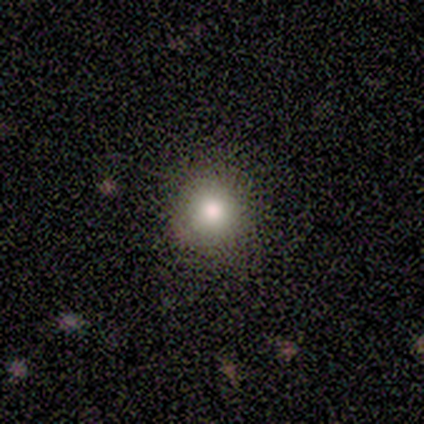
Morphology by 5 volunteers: smooth_or_featured: smooth (p=1.00)
how_rounded: round (p=1.00)
merging: none (p=1.00)